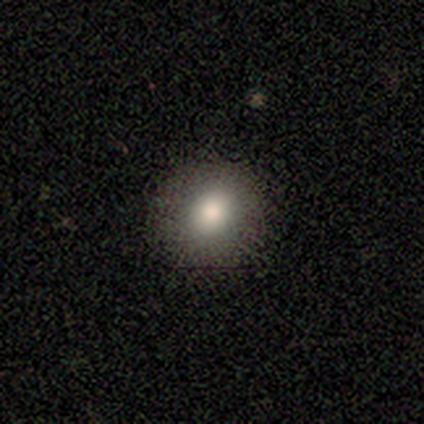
Consensus on every question: smooth or featured — smooth (100%); how rounded — round (100%); merging — none (100%).